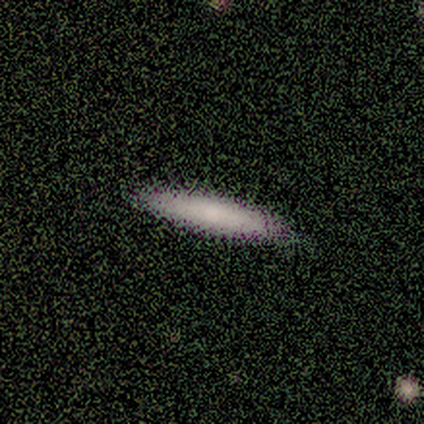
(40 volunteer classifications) Smooth or featured? smooth (72%)
How rounded? cigar-shaped (93%)
Merging? none (59%)